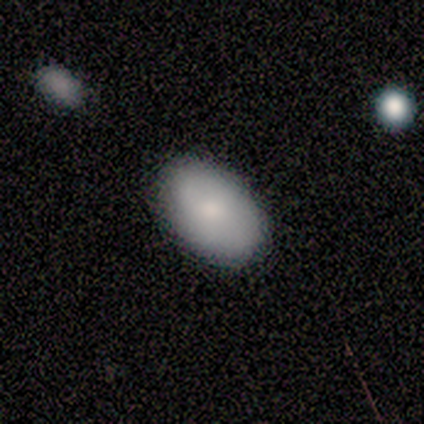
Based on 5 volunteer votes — Overall: smooth (80%). How rounded: in between (100%). Merging: none (100%).